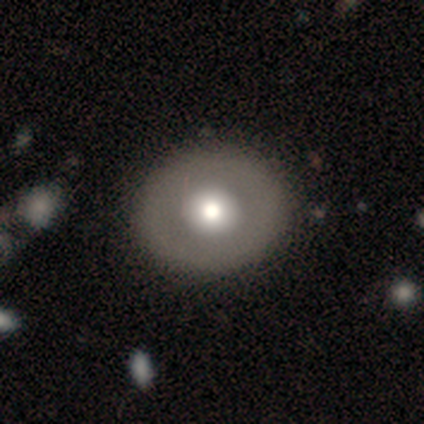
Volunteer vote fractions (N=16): A featured or disk galaxy (56%) with no bar (100%), no spiral arms (100%) and a large central bulge (67%).

Vote fractions:
- Smooth or featured? featured or disk: 56% / smooth: 44% / star or artifact: 0%
- Edge-on disk? no: 100% / yes: 0%
- Bar? no: 100% / strong: 0% / weak: 0%
- Spiral arms? no: 100% / yes: 0%
- Bulge size? large: 67% / moderate: 33% / dominant: 0% / small: 0% / none: 0%
- Merging? none: 100% / minor disturbance: 0% / major disturbance: 0% / merger: 0%